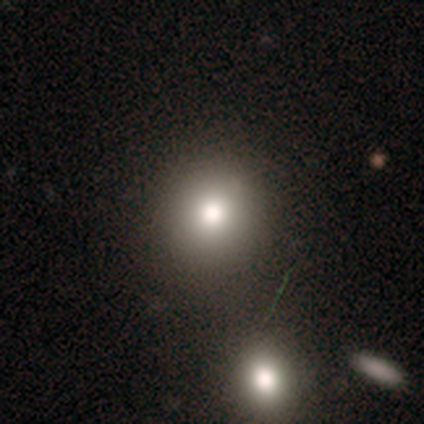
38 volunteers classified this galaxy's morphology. smooth-or-featured: smooth: 84% | featured or disk: 8% | star or artifact: 8%
  how-rounded: round: 78% | in between: 22% | cigar-shaped: 0%
  merging: none: 77% | merger: 11% | minor disturbance: 9% | major disturbance: 3%